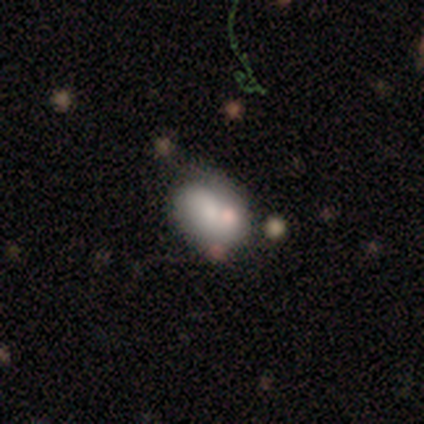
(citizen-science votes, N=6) smooth_or_featured: smooth (p=1.00)
how_rounded: in between (p=0.67) [alt: round p=0.33]
merging: none (p=0.50) [alt: minor disturbance p=0.33]